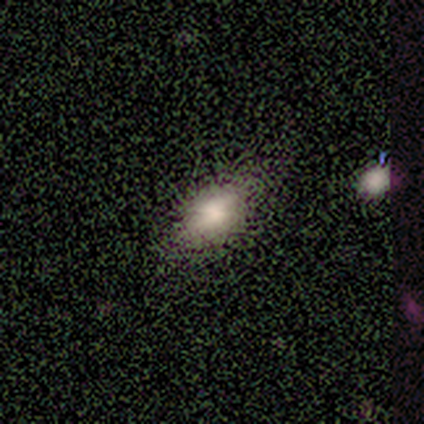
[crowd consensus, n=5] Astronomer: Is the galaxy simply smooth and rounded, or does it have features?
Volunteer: smooth — 40%, tied with featured or disk at 40%.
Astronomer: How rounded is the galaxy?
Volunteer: in between — 100%.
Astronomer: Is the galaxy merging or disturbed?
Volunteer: none — 75%.